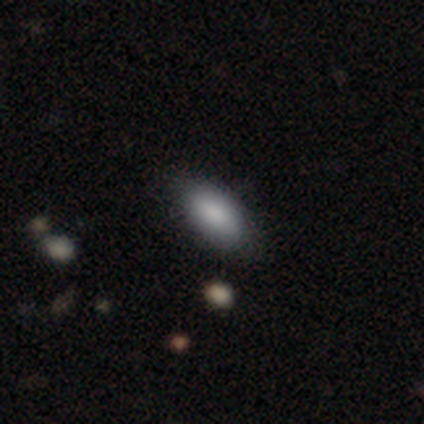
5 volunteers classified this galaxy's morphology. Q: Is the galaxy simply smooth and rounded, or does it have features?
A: smooth — 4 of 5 (80%).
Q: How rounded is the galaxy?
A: in between — 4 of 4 (100%).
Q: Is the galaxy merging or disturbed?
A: none — 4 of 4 (100%).